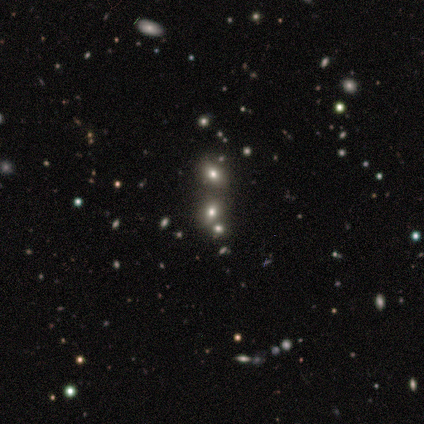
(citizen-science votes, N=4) Morphology: type=smooth (50%, tied with featured or disk); roundness=round (100%); merging=none (75%).